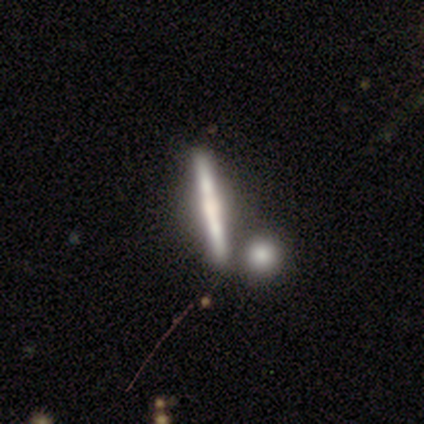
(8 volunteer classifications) A featured or disk galaxy (88%) viewed edge-on (100%) with a rounded central bulge (57%). Merging: none (62%).